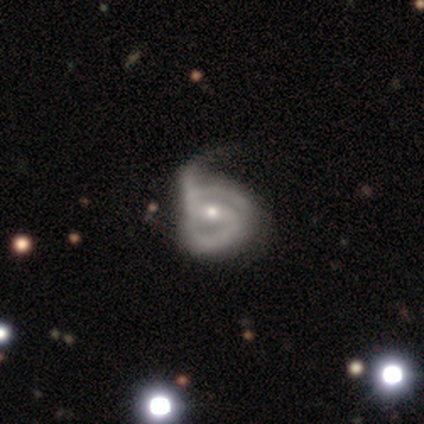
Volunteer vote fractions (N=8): This is clearly a featured or disk galaxy (100%). It is clearly not viewed edge-on (100%). Bar: likely strong (62%). Spiral arm pattern: clearly yes (100%). Spiral arm count: clearly 2 (88%). Spiral winding: likely tight (62%). Central bulge: possibly moderate (50%, tied with small). Merging: likely major disturbance (75%).